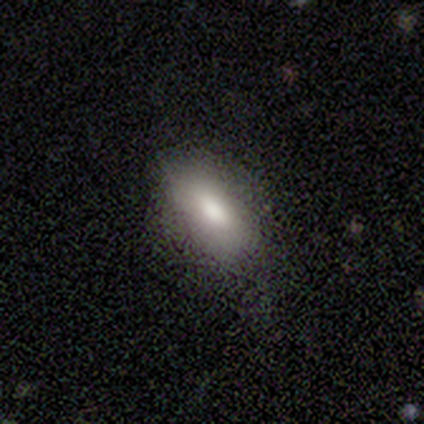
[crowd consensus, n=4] Smooth or featured?
  - smooth: 100% *
  - featured or disk: 0%
  - star or artifact: 0%
How rounded?
  - in between: 75% *
  - cigar-shaped: 25%
  - round: 0%
Merging?
  - none: 50% * (tied)
  - minor disturbance: 50% * (tied)
  - major disturbance: 0%
  - merger: 0%